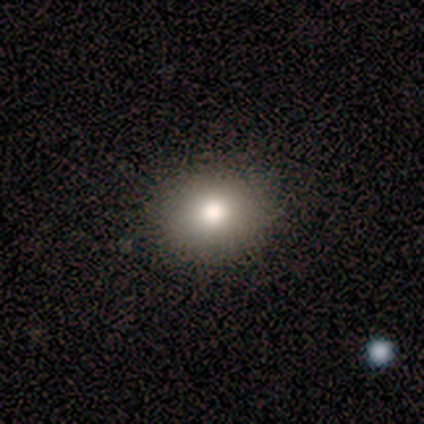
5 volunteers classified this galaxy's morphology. A smooth galaxy with no disk features (80%) that is round (50%, tied with in between).

Vote fractions:
- Smooth or featured? smooth: 80% / featured or disk: 20% / star or artifact: 0%
- How rounded? round: 50% (tied) / in between: 50% (tied) / cigar-shaped: 0%
- Merging? none: 100% / minor disturbance: 0% / major disturbance: 0% / merger: 0%